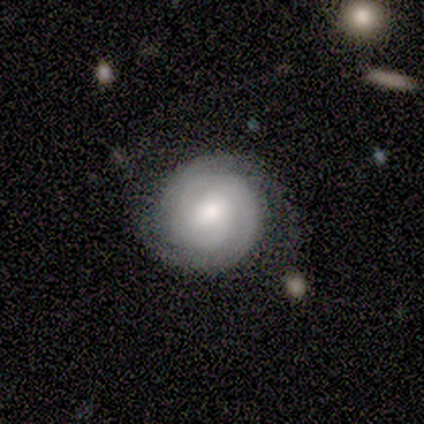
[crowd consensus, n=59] Overall: featured or disk (78%). Edge-on disk: no (100%). Bar: weak (54%; no 43%). Spiral arms: yes (96%). Spiral arm count: 2 (55%; can't tell 36%). Spiral winding: tight (89%). Bulge size: moderate (63%; small 26%). Merging: none (72%).